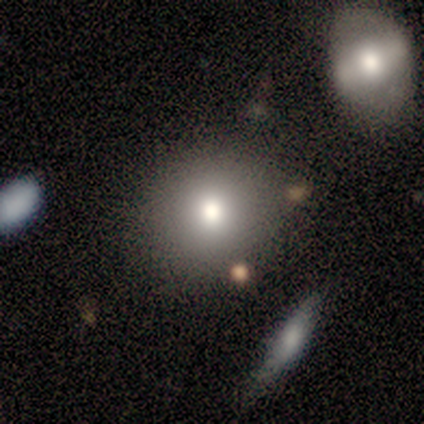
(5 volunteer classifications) Smooth or featured?
  - smooth: 60% *
  - featured or disk: 40%
  - star or artifact: 0%
How rounded?
  - round: 67% *
  - in between: 33%
  - cigar-shaped: 0%
Merging?
  - none: 60% *
  - minor disturbance: 20%
  - major disturbance: 20%
  - merger: 0%